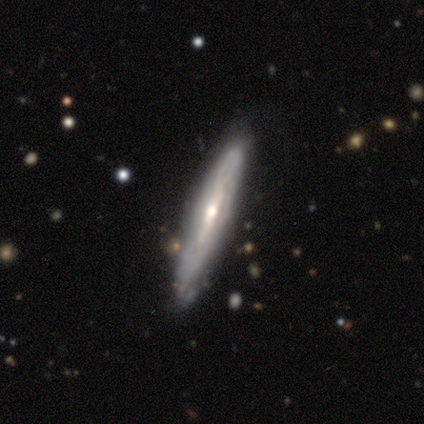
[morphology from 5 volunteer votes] A featured or disk galaxy (60%) viewed edge-on (100%) with a rounded central bulge (67%). Merging: none (100%).